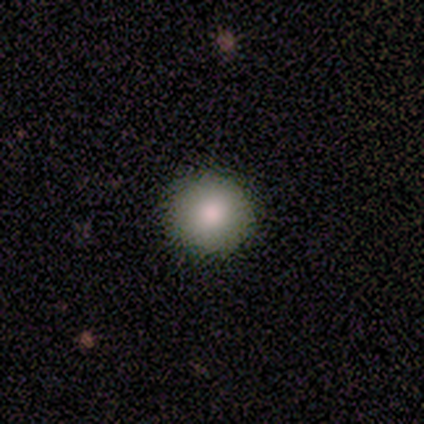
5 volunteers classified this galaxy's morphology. Q: Smooth or featured?
A: smooth (80%); runner-up: featured or disk (20%)
Q: How rounded?
A: round (100%)
Q: Merging?
A: none (80%); runner-up: minor disturbance (20%)